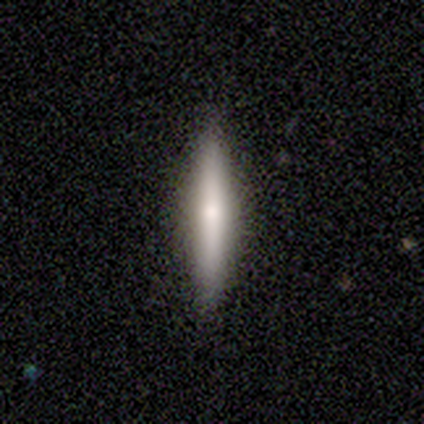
smooth_or_featured: featured or disk (p=0.60) [alt: smooth p=0.40]
disk_edge_on: yes (p=1.00)
edge_on_bulge: rounded (p=1.00)
merging: none (p=1.00)